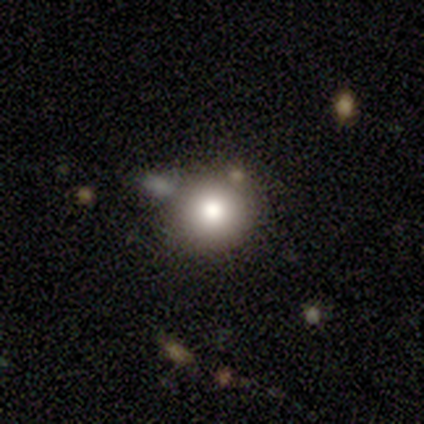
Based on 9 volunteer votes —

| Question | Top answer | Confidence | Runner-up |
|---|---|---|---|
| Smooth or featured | smooth | 89% | featured or disk (11%) |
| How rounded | round | 88% | in between (12%) |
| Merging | none | 56% | minor disturbance (22%) |